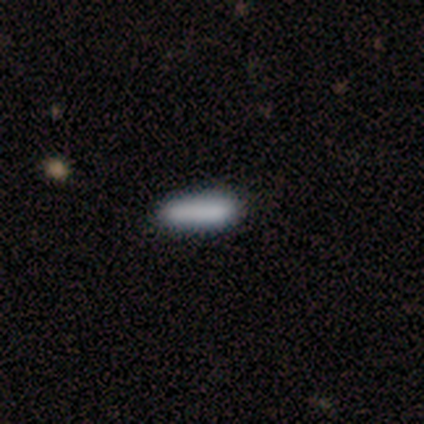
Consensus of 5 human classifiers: Smooth or featured: smooth — 100%
How rounded: cigar-shaped — 80% (in between — 20%)
Merging: none — 40% (tied with minor disturbance — 40%)